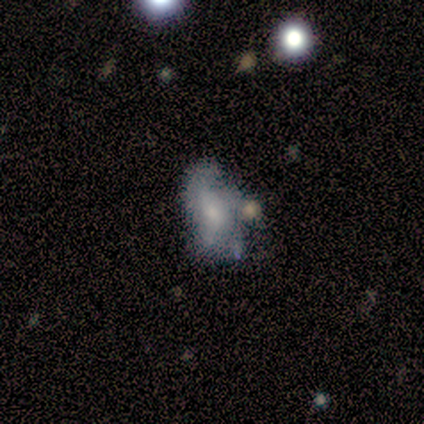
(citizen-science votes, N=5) Q: Smooth or featured?
A: featured or disk (100%)
Q: Edge-on disk?
A: no (80%); runner-up: yes (20%)
Q: Bar?
A: no (100%)
Q: Spiral arms?
A: no (75%); runner-up: yes (25%)
Q: Bulge size?
A: moderate (50%); tied with: small (50%)
Q: Merging?
A: minor disturbance (40%); runner-up: none (20%)